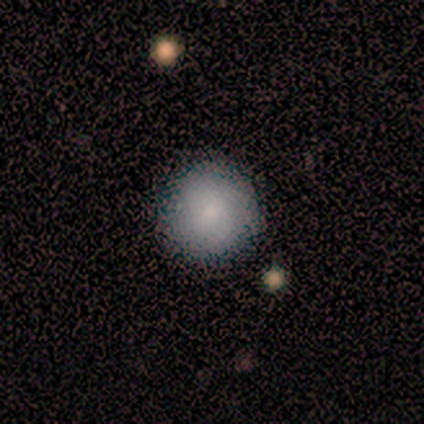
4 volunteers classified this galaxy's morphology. A smooth galaxy with no disk features (100%) that is round (100%).

Vote fractions:
- Smooth or featured? smooth: 100% / featured or disk: 0% / star or artifact: 0%
- How rounded? round: 100% / in between: 0% / cigar-shaped: 0%
- Merging? none: 75% / minor disturbance: 25% / major disturbance: 0% / merger: 0%